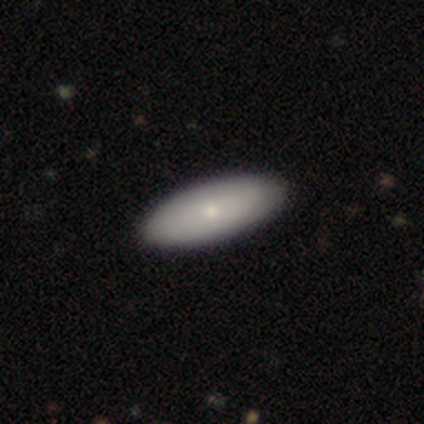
Smooth or featured?
  - smooth: 80% *
  - featured or disk: 20%
  - star or artifact: 0%
How rounded?
  - in between: 100% *
  - round: 0%
  - cigar-shaped: 0%
Merging?
  - none: 100% *
  - minor disturbance: 0%
  - major disturbance: 0%
  - merger: 0%